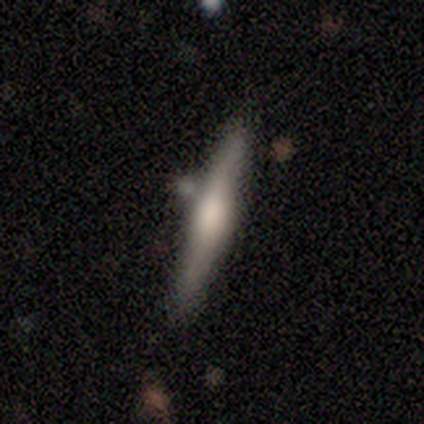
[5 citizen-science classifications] Smooth or featured?
  - featured or disk: 60% *
  - smooth: 40%
  - star or artifact: 0%
Edge-on disk?
  - yes: 100% *
  - no: 0%
Edge-on bulge?
  - rounded: 67% *
  - boxy: 33%
  - none: 0%
Merging?
  - none: 80% *
  - merger: 20%
  - minor disturbance: 0%
  - major disturbance: 0%